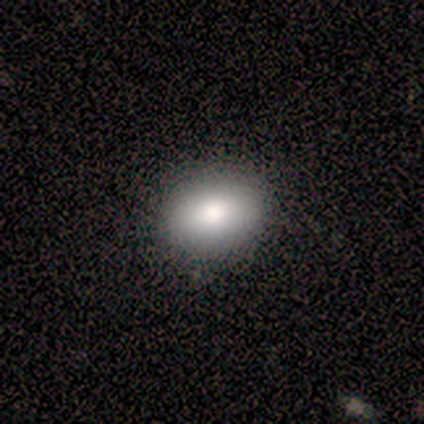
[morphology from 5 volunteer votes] A smooth galaxy with no disk features (80%) that is in between round and cigar-shaped (75%).

Vote fractions:
- Smooth or featured? smooth: 80% / star or artifact: 20% / featured or disk: 0%
- How rounded? in between: 75% / round: 25% / cigar-shaped: 0%
- Merging? none: 100% / minor disturbance: 0% / major disturbance: 0% / merger: 0%